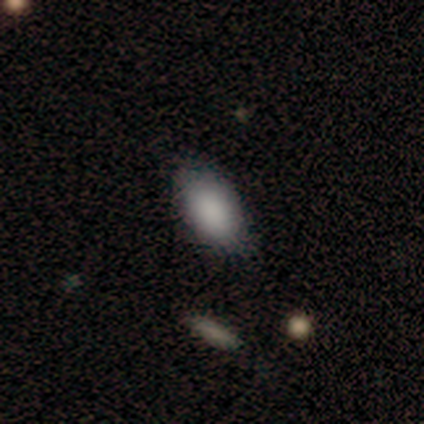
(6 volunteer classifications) Smooth or featured?
  - smooth: 100% *
  - featured or disk: 0%
  - star or artifact: 0%
How rounded?
  - in between: 83% *
  - round: 17%
  - cigar-shaped: 0%
Merging?
  - none: 67% *
  - minor disturbance: 33%
  - major disturbance: 0%
  - merger: 0%